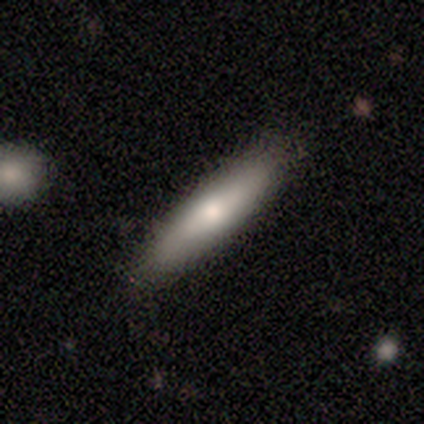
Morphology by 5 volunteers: smooth_or_featured: smooth (p=1.00)
how_rounded: in between (p=0.60) [alt: cigar-shaped p=0.40]
merging: none (p=1.00)